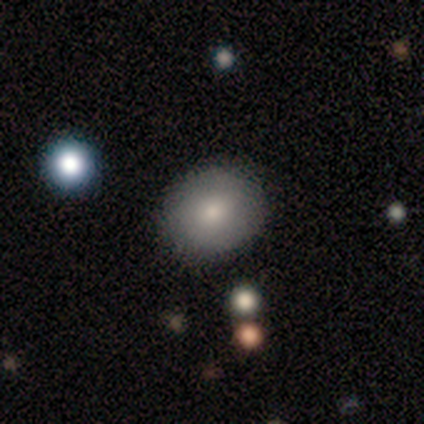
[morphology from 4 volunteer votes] Q: Smooth or featured?
A: smooth (75%); runner-up: featured or disk (25%)
Q: How rounded?
A: round (100%)
Q: Merging?
A: none (100%)